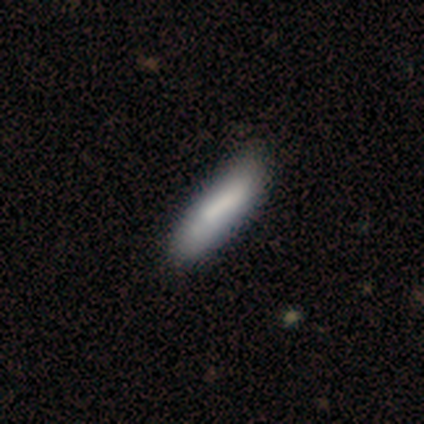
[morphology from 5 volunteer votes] smooth 100%, featured or disk 0%, star or artifact 0%. Down the decision tree: how rounded — cigar-shaped (100%); merging — none (60%).